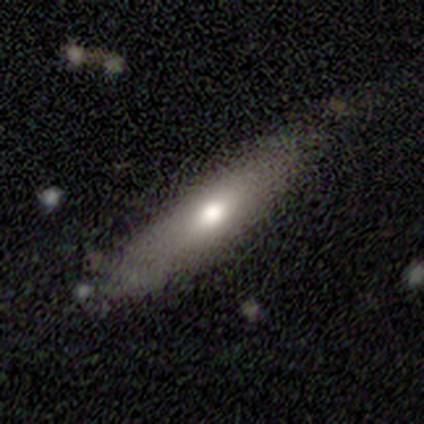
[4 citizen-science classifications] This appears to be a smooth galaxy with no disk features (75%) that is cigar-shaped (100%). Merging: none (75%).